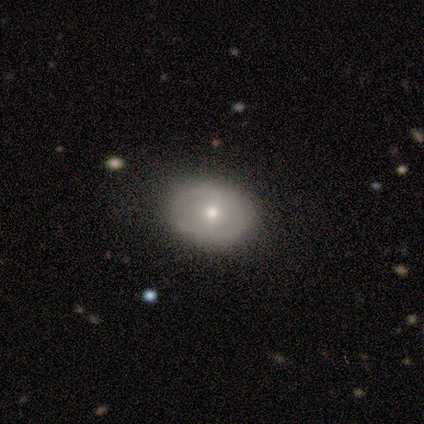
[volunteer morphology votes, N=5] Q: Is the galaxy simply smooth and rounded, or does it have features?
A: featured or disk — 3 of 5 (60%).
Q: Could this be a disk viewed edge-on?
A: no — 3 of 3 (100%).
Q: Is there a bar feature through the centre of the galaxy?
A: weak — 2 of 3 (67%).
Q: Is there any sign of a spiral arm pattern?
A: no — 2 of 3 (67%).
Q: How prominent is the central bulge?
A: small — 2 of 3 (67%).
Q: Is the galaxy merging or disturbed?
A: none — 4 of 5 (80%).